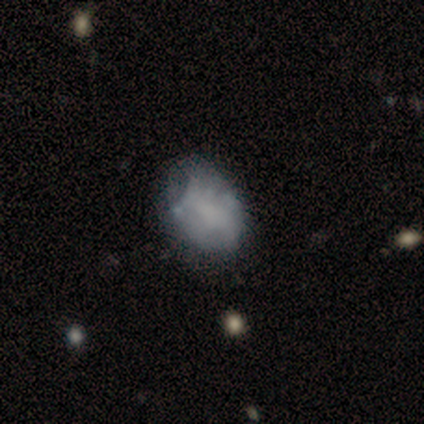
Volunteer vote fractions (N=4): Smooth or featured? smooth (50%, tied with featured or disk)
How rounded? in between (100%)
Merging? none (100%)